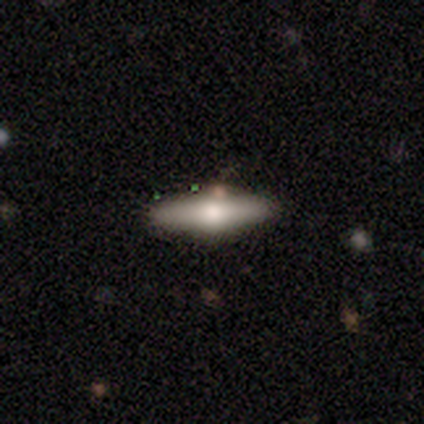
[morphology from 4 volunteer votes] Volunteers were most divided on "edge-on disk": yes: 67%, no: 33%. More confident: edge-on bulge — rounded (100%); merging — none (100%); smooth or featured — featured or disk (75%).